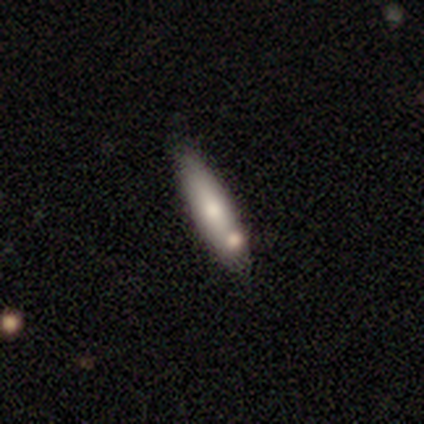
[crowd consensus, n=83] A smooth galaxy with no disk features (70%) that is cigar-shaped (79%). Merging: none (73%).